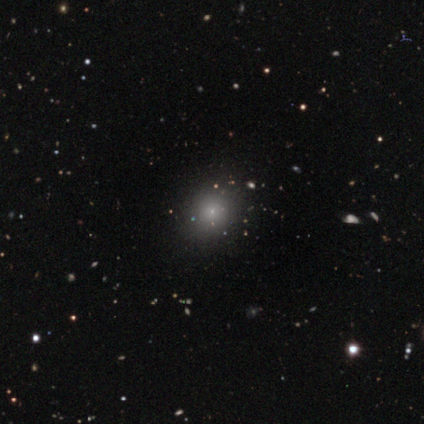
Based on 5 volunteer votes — smooth-or-featured: smooth: 40% (tied) | star or artifact: 40% (tied) | featured or disk: 20%
  how-rounded: round: 100% | in between: 0% | cigar-shaped: 0%
  merging: none: 67% | minor disturbance: 33% | major disturbance: 0% | merger: 0%